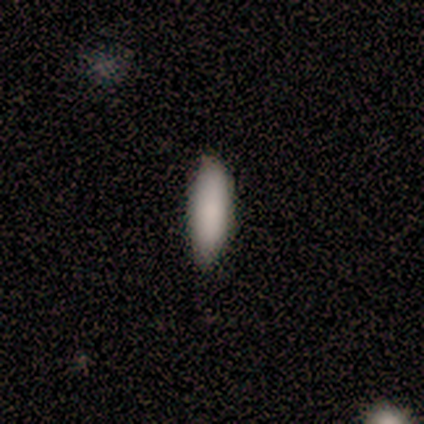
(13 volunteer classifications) This is clearly a smooth galaxy (92%). How rounded: likely in between (75%). Merging: clearly none (83%).